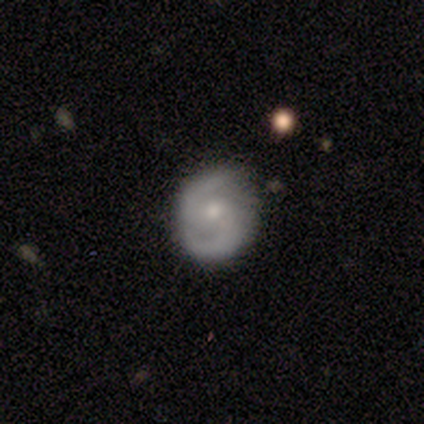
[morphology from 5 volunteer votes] A featured or disk galaxy (100%) with no bar (100%), 2 (100%) medium (75%) spiral arms (80%) and a moderate central bulge (60%). Merging: none (100%).